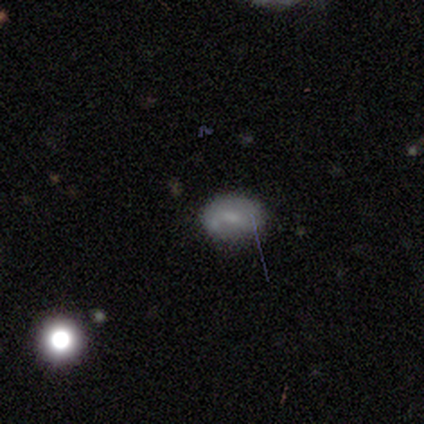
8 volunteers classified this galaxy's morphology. smooth_or_featured: featured or disk (p=0.62) [alt: smooth p=0.38]
disk_edge_on: no (p=1.00)
bar: no (p=0.60) [alt: weak p=0.40]
has_spiral_arms: yes (p=0.60) [alt: no p=0.40]
spiral_winding: loose (p=0.67) [alt: medium p=0.33]
spiral_arm_count: 1 (p=0.33) [tied with: 2 p=0.33, can't tell p=0.33]
bulge_size: small (p=0.60) [alt: moderate p=0.40]
merging: none (p=0.75) [alt: minor disturbance p=0.12]